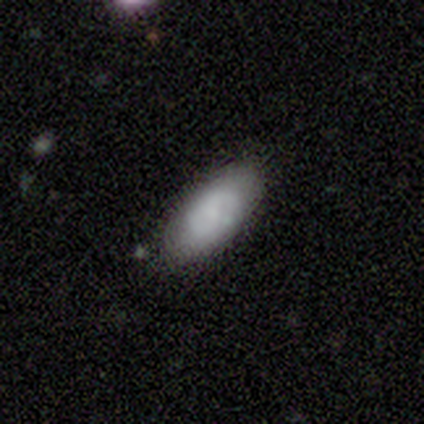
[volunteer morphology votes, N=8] Smooth or featured: smooth — 75% (featured or disk — 25%)
How rounded: in between — 100%
Merging: none — 75% (minor disturbance — 25%)